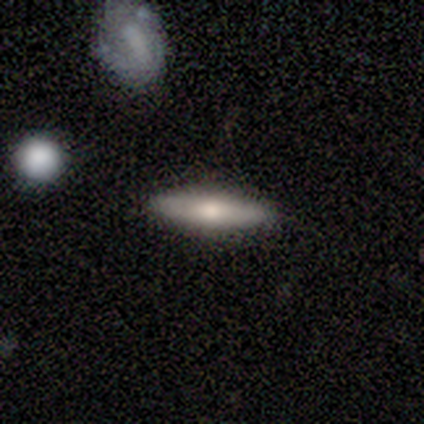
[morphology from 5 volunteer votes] A smooth galaxy with no disk features (60%) that is in between round and cigar-shaped (67%).

Vote fractions:
- Smooth or featured? smooth: 60% / featured or disk: 40% / star or artifact: 0%
- How rounded? in between: 67% / cigar-shaped: 33% / round: 0%
- Merging? none: 100% / minor disturbance: 0% / major disturbance: 0% / merger: 0%